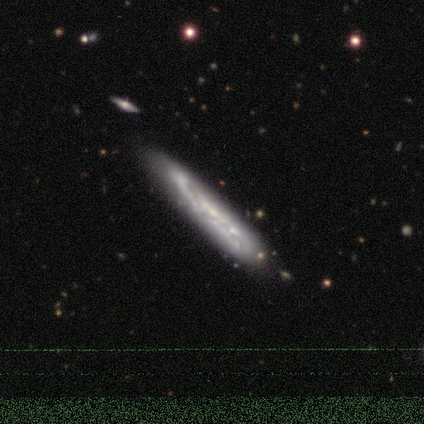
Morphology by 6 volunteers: Overall: featured or disk (50%; smooth 33%). Edge-on disk: no (67%; yes 33%). Bar: no (100%). Spiral arms: no (100%). Bulge size: moderate (50%, tied with none). Merging: none (80%).